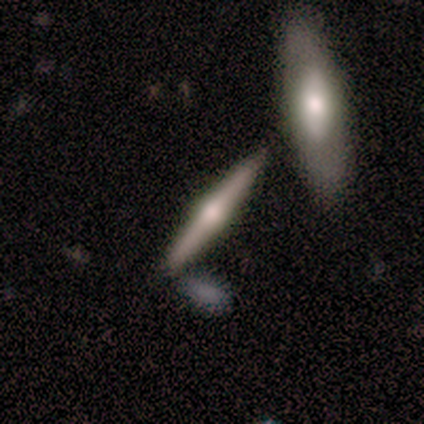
featured or disk 60%, smooth 20%, star or artifact 20%. Down the decision tree: edge-on disk — yes (100%); edge-on bulge — rounded (100%); merging — none (100%).